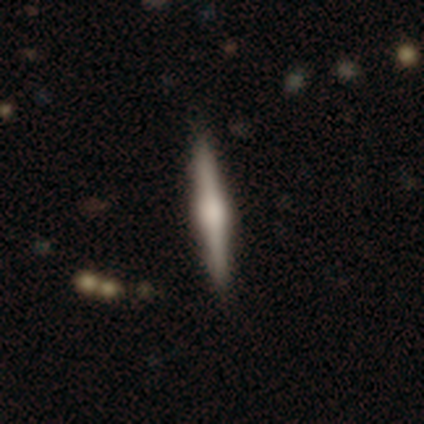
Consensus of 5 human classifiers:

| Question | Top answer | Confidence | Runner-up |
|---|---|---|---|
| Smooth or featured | featured or disk | 60% | smooth (40%) |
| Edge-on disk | yes | 100% | — |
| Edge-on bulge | rounded | 67% | boxy (33%) |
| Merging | none | 40% | tied: minor disturbance (40%) |